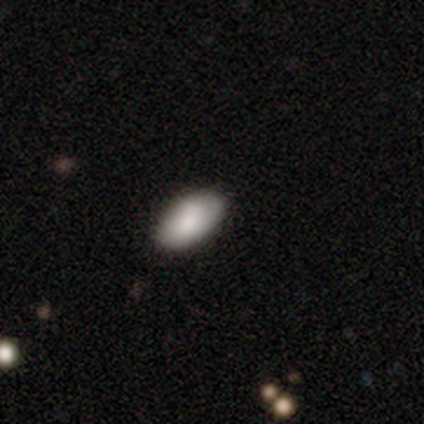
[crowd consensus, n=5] Q: Smooth or featured?
A: smooth (80%); runner-up: featured or disk (20%)
Q: How rounded?
A: in between (100%)
Q: Merging?
A: none (60%); runner-up: minor disturbance (40%)